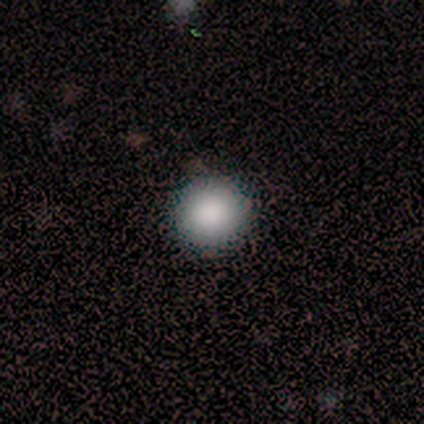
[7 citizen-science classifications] smooth-or-featured: smooth: 86% | featured or disk: 14% | star or artifact: 0%
  how-rounded: round: 100% | in between: 0% | cigar-shaped: 0%
  merging: none: 100% | minor disturbance: 0% | major disturbance: 0% | merger: 0%